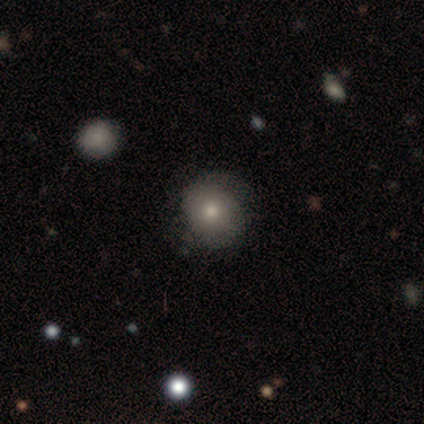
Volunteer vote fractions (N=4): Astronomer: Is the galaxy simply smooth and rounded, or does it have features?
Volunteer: smooth — 50%, tied with featured or disk at 50%.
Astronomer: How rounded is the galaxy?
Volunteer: round — 100%.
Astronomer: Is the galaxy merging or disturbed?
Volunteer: none — 75%.